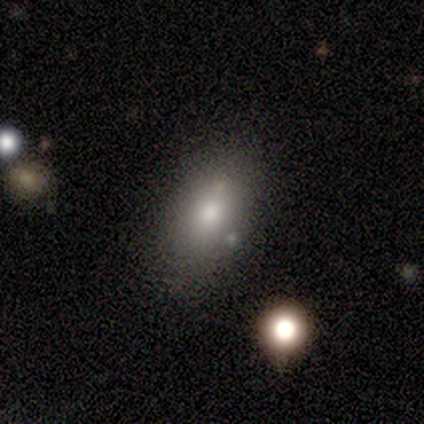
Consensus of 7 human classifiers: Smooth or featured: smooth — 100%
How rounded: in between — 100%
Merging: none — 86% (minor disturbance — 14%)